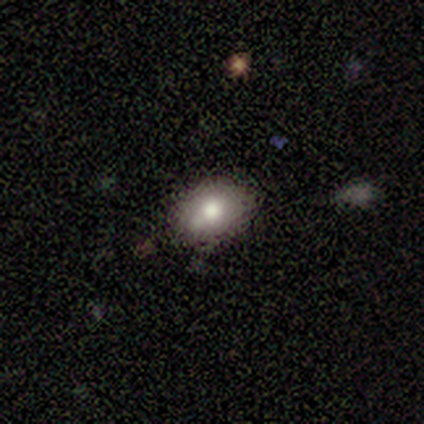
Smooth or featured: smooth — 60% (featured or disk — 20%)
How rounded: in between — 67% (round — 33%)
Merging: none — 100%